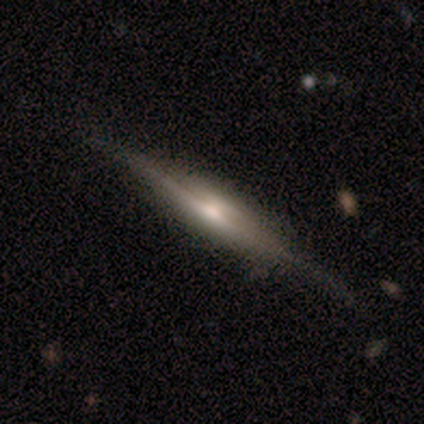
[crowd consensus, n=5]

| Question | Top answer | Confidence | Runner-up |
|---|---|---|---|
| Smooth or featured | featured or disk | 80% | smooth (20%) |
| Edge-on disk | yes | 100% | — |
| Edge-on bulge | rounded | 100% | — |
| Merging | none | 60% | minor disturbance (20%) |